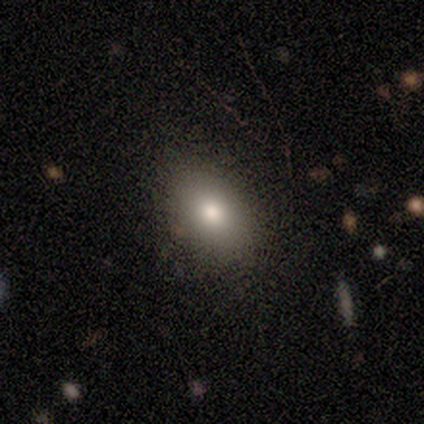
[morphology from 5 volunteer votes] smooth_or_featured: smooth (p=1.00)
how_rounded: in between (p=1.00)
merging: none (p=0.80) [alt: minor disturbance p=0.20]